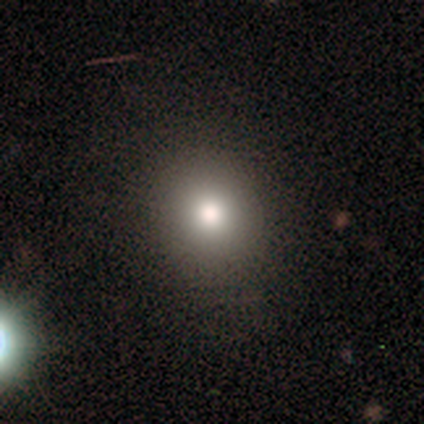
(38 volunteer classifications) smooth-or-featured: smooth: 71% | star or artifact: 18% | featured or disk: 11%
  how-rounded: round: 93% | in between: 7% | cigar-shaped: 0%
  merging: none: 90% | major disturbance: 6% | minor disturbance: 3% | merger: 0%